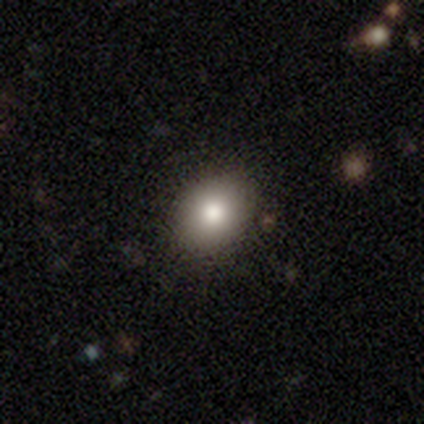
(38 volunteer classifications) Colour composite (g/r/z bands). It shows a smooth galaxy with no disk features (79%) that is in between round and cigar-shaped (60%). Merging: none (88%).